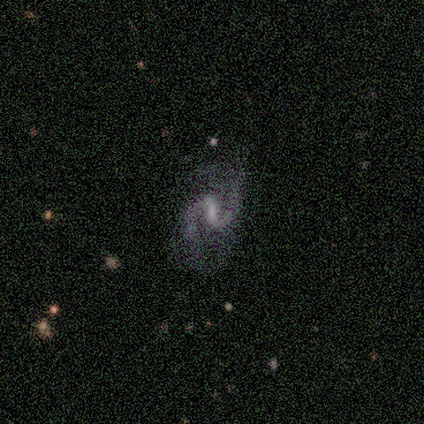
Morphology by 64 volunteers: A featured or disk galaxy (88%) with a weak bar (50%), 2 (91%) loose (49%) spiral arms (98%) and no central bulge (39%).

Vote fractions:
- Smooth or featured? featured or disk: 88% / star or artifact: 12% / smooth: 0%
- Edge-on disk? no: 96% / yes: 4%
- Bar? weak: 50% / strong: 33% / no: 17%
- Spiral arms? yes: 98% / no: 2%
- Spiral winding? loose: 49% / medium: 43% / tight: 8%
- Spiral arm count? 2: 91% / 1: 6% / 3: 2% / can't tell: 2% / 4: 0% / more than 4: 0%
- Bulge size? none: 39% / small: 35% / moderate: 20% / large: 6% / dominant: 0%
- Merging? none: 55% / minor disturbance: 23% / major disturbance: 18% / merger: 4%